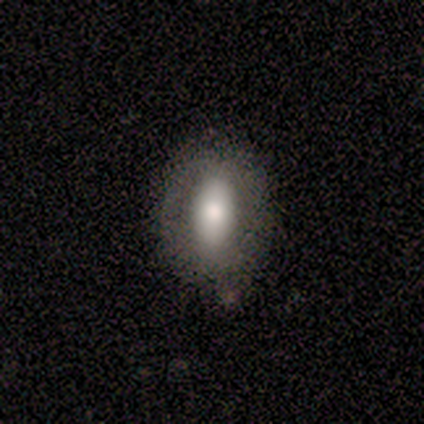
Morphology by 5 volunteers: Smooth or featured? 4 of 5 (80%) said smooth. How rounded? 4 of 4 (100%) said in between. Merging? 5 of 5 (100%) said none.